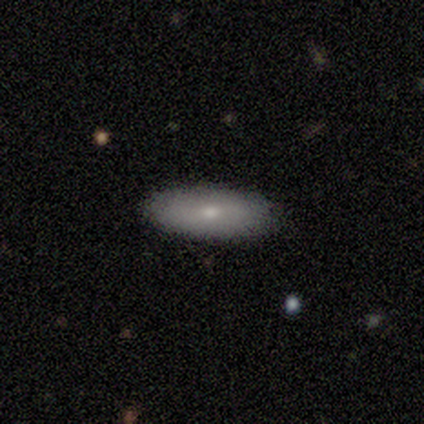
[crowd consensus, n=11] smooth-or-featured: smooth: 91% | featured or disk: 9% | star or artifact: 0%
  how-rounded: in between: 90% | cigar-shaped: 10% | round: 0%
  merging: none: 100% | minor disturbance: 0% | major disturbance: 0% | merger: 0%